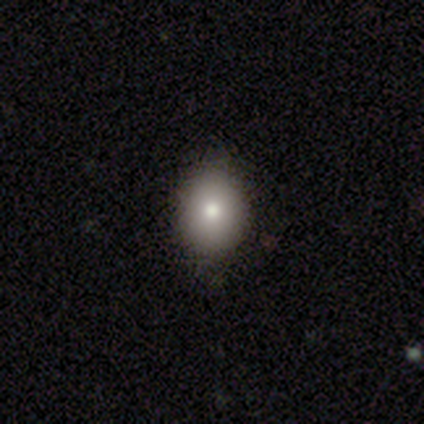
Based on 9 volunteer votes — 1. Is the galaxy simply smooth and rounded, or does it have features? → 67% smooth, 22% featured or disk, 11% star or artifact.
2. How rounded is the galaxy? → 83% in between, 17% round, 0% cigar-shaped.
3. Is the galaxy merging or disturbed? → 88% none, 12% merger, 0% minor disturbance, 0% major disturbance.